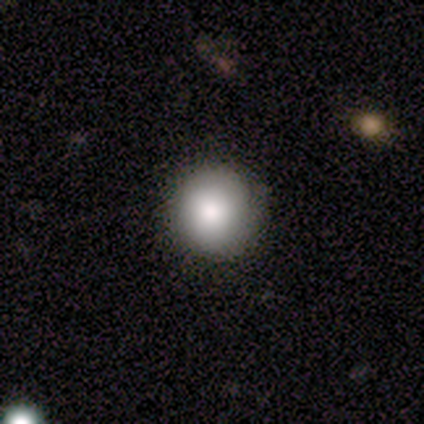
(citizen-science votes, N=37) A smooth galaxy with no disk features (84%) that is round (97%). Merging: none (63%).